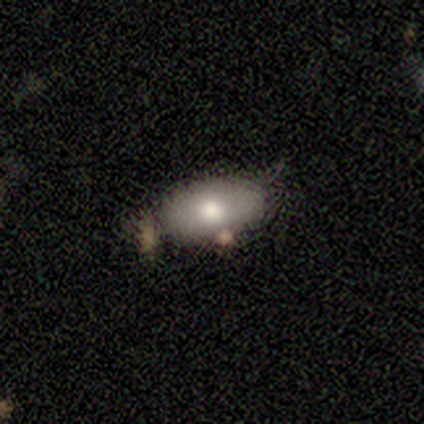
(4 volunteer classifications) Smooth or featured? smooth (75%)
How rounded? in between (100%)
Merging? none (100%)